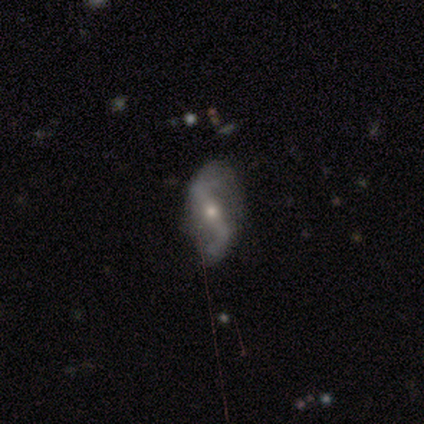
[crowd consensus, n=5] Q: Smooth or featured?
A: featured or disk (100%)
Q: Edge-on disk?
A: no (60%); runner-up: yes (40%)
Q: Bar?
A: strong (67%); runner-up: no (33%)
Q: Spiral arms?
A: yes (100%)
Q: Spiral winding?
A: loose (100%)
Q: Spiral arm count?
A: 2 (100%)
Q: Bulge size?
A: small (67%); runner-up: moderate (33%)
Q: Merging?
A: minor disturbance (60%); runner-up: none (40%)